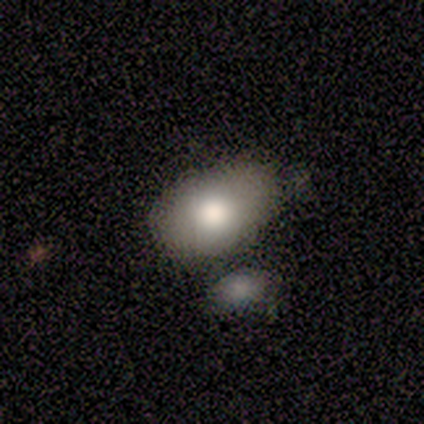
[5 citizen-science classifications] Smooth or featured?
  - smooth: 100% *
  - featured or disk: 0%
  - star or artifact: 0%
How rounded?
  - in between: 100% *
  - round: 0%
  - cigar-shaped: 0%
Merging?
  - none: 40% * (tied)
  - minor disturbance: 40% * (tied)
  - merger: 20%
  - major disturbance: 0%